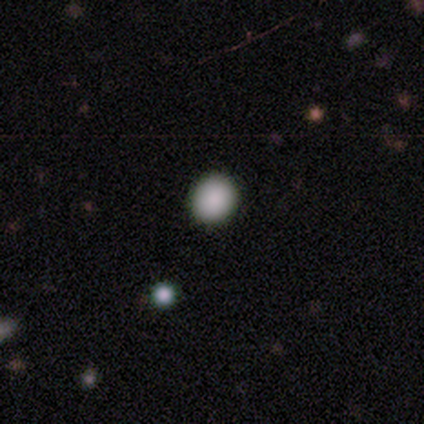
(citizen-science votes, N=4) smooth-or-featured: smooth: 75% | featured or disk: 25% | star or artifact: 0%
  how-rounded: round: 67% | in between: 33% | cigar-shaped: 0%
  merging: none: 75% | merger: 25% | minor disturbance: 0% | major disturbance: 0%